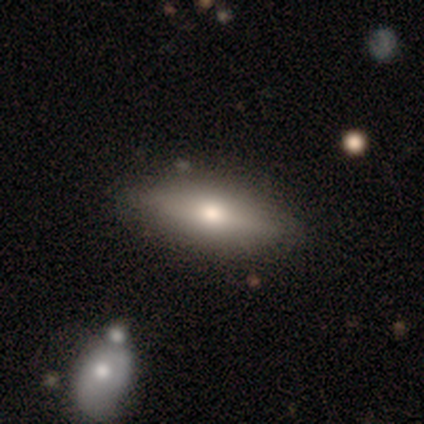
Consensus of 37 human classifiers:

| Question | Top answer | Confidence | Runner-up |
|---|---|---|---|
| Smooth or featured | smooth | 54% | featured or disk (32%) |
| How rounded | in between | 65% | cigar-shaped (35%) |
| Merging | none | 91% | minor disturbance (9%) |